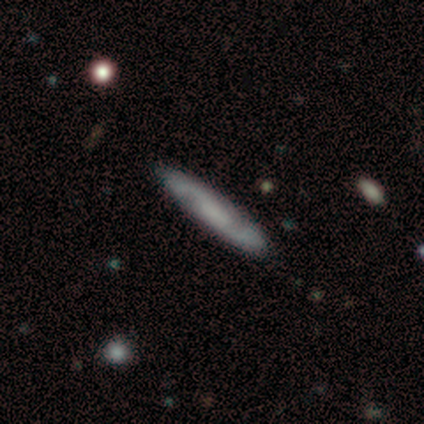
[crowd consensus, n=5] smooth_or_featured: featured or disk (p=0.60) [alt: smooth p=0.40]
disk_edge_on: no (p=1.00)
bar: no (p=1.00)
has_spiral_arms: yes (p=1.00)
spiral_winding: tight (p=0.33) [tied with: medium p=0.33, loose p=0.33]
spiral_arm_count: 2 (p=1.00)
bulge_size: moderate (p=0.33) [tied with: small p=0.33, none p=0.33]
merging: none (p=0.80) [alt: minor disturbance p=0.20]